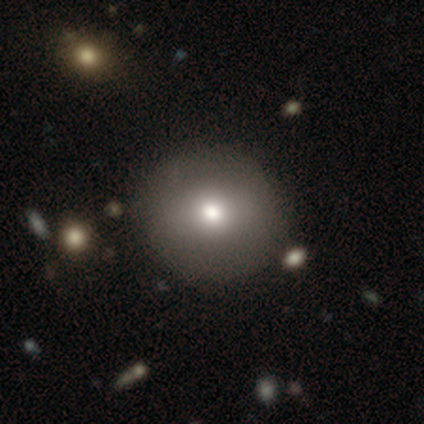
Q: Smooth or featured?
A: smooth (85%); runner-up: featured or disk (10%)
Q: How rounded?
A: round (94%); runner-up: in between (6%)
Q: Merging?
A: none (47%); runner-up: merger (7%)